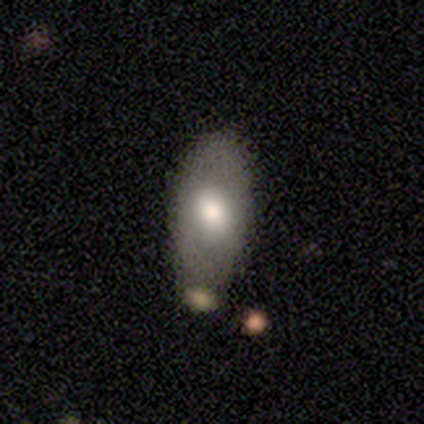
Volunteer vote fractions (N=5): Morphology: type=smooth (40%, tied with featured or disk); roundness=round (50%, tied with in between); merging=none (75%).